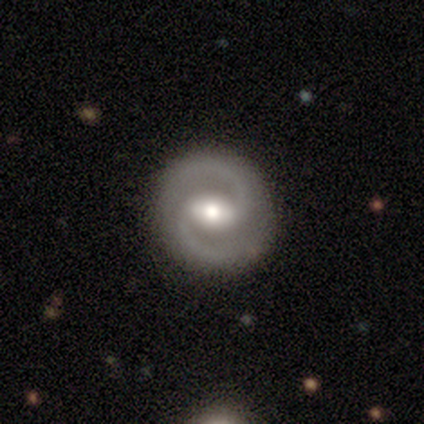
This appears to be a featured or disk galaxy (92%) with a strong bar (53%), 2 (100%) medium (71%) spiral arms (94%) and a moderate central bulge (78%). Merging: none (87%).